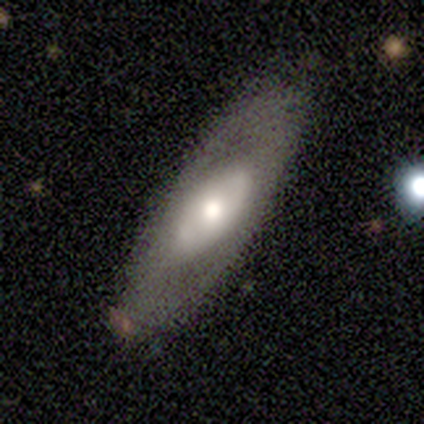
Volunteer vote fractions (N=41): Morphology: type=featured or disk (56%); edge-on=no (87%); bar=no (95%); spiral arms=no (70%); bulge=moderate (60%); merging=none (80%).